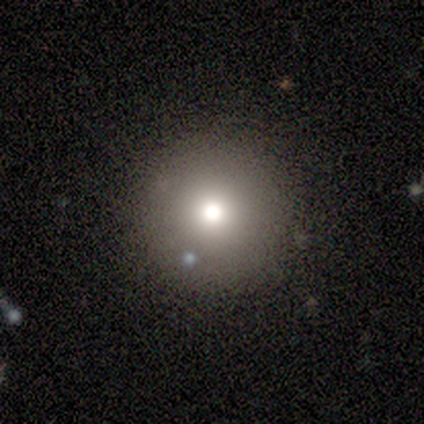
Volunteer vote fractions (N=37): Smooth or featured: smooth — 73% (star or artifact — 19%)
How rounded: round — 100%
Merging: none — 97% (minor disturbance — 3%)